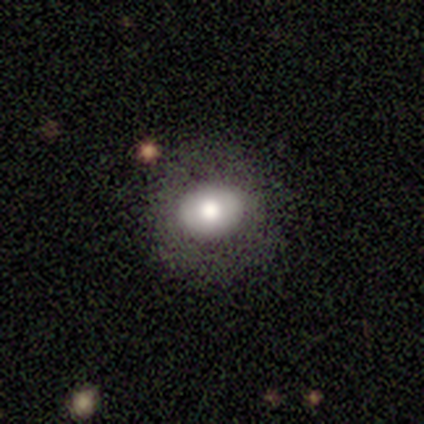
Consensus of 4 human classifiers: Volunteers were most divided on "how rounded" (2-way tie): round: 50%, in between: 50%, cigar-shaped: 0%. More confident: smooth or featured — smooth (100%); merging — none (75%).